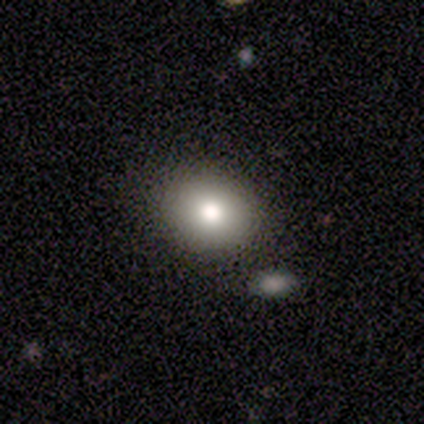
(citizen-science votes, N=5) Morphology: type=smooth (60%); roundness=in between (67%); merging=none (100%).